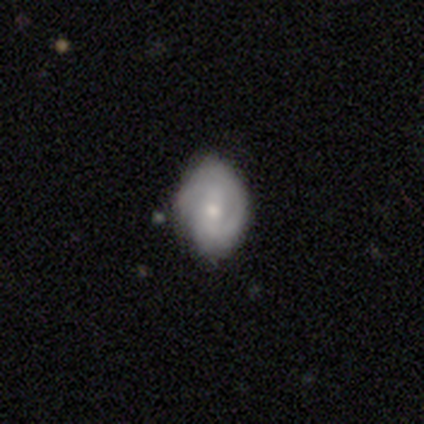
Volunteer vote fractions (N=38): Volunteers were most divided on "spiral arm count": 2: 44%, can't tell: 32%, 1: 12%, 3: 8%, 4: 4%, more than 4: 0%. Remaining: edge-on disk — no (100%); spiral arms — yes (86%); smooth or featured — featured or disk (76%); merging — none (61%); spiral winding — tight (60%); bulge size — moderate (52%); bar — weak (45%).